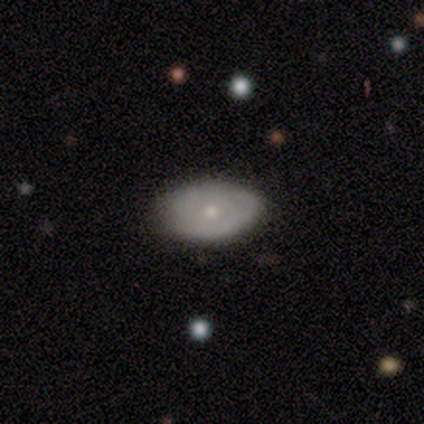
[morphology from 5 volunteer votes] type=featured or disk (60%); edge-on=no (100%); bar=no (100%); spiral arms=no (100%); bulge=moderate (67%); merging=none (100%).